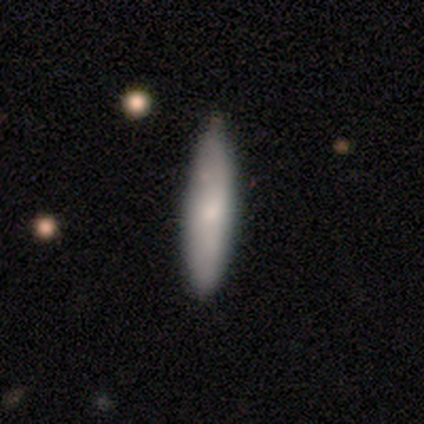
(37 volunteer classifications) smooth-or-featured: smooth: 65% | featured or disk: 32% | star or artifact: 3%
  how-rounded: cigar-shaped: 79% | in between: 21% | round: 0%
  merging: none: 58% | minor disturbance: 36% | major disturbance: 3% | merger: 3%